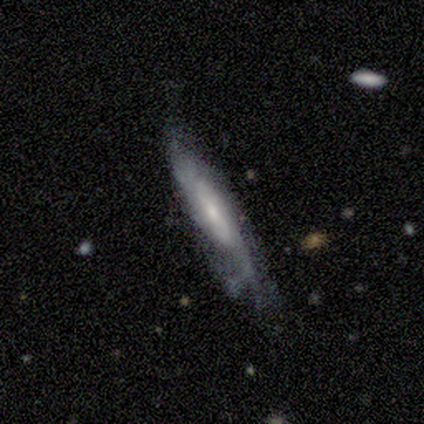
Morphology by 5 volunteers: Smooth or featured? 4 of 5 (80%) said featured or disk. Edge-on disk? 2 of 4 (50%, tied with no) said yes. Edge-on bulge? 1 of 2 (50%, tied with none) said boxy. Merging? 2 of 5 (40%, tied with minor disturbance) said none.